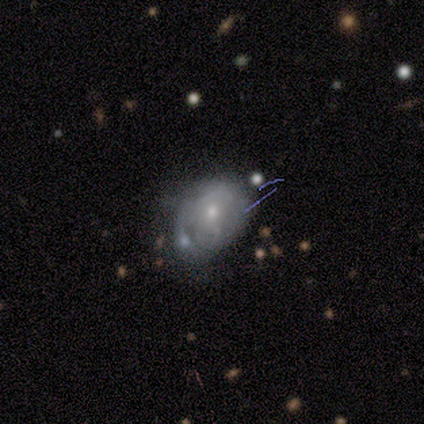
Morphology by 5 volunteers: Q: Smooth or featured?
A: smooth (60%); runner-up: featured or disk (20%)
Q: How rounded?
A: in between (100%)
Q: Merging?
A: none (25%); tied with: minor disturbance (25%); major disturbance (25%); merger (25%)